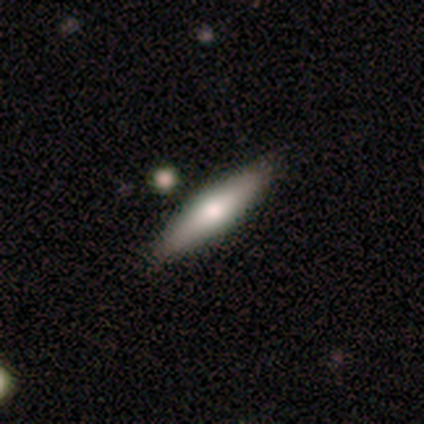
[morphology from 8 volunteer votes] smooth_or_featured: featured or disk (p=0.62) [alt: smooth p=0.25]
disk_edge_on: yes (p=0.80) [alt: no p=0.20]
edge_on_bulge: rounded (p=0.75) [alt: none p=0.25]
merging: none (p=1.00)